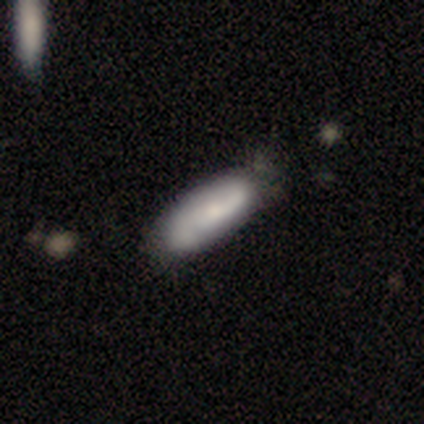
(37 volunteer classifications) Q: Smooth or featured?
A: smooth (62%); runner-up: featured or disk (35%)
Q: How rounded?
A: in between (70%); runner-up: cigar-shaped (30%)
Q: Merging?
A: none (42%); runner-up: minor disturbance (14%)